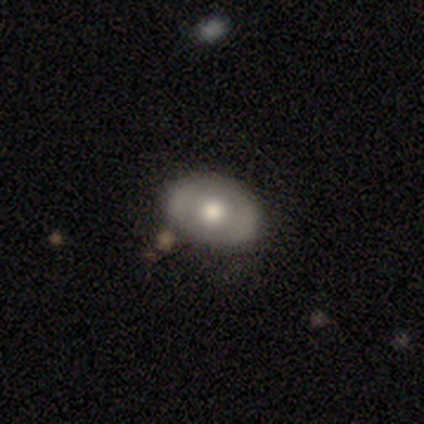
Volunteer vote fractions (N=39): Smooth or featured: featured or disk — 62% (smooth — 38%)
Edge-on disk: no — 96% (yes — 4%)
Bar: no — 78% (weak — 13%)
Spiral arms: no — 78% (yes — 22%)
Bulge size: moderate — 61% (large — 30%)
Merging: none — 92% (minor disturbance — 5%)